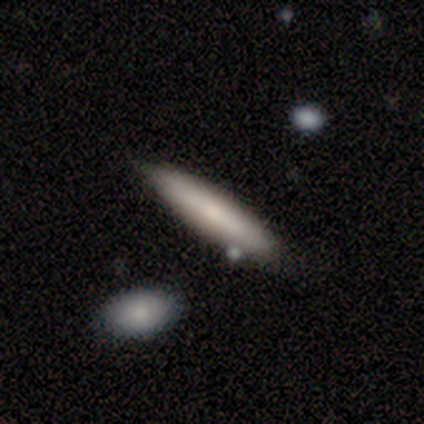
Overall: smooth (73%). How rounded: cigar-shaped (97%). Merging: none (75%).